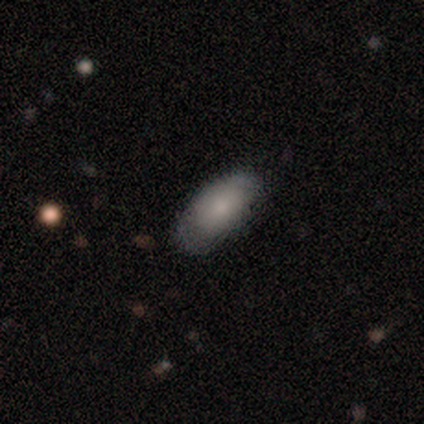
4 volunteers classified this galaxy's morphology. smooth 75%, star or artifact 25%, featured or disk 0%. Down the decision tree: how rounded — in between (100%); merging — none (67%).